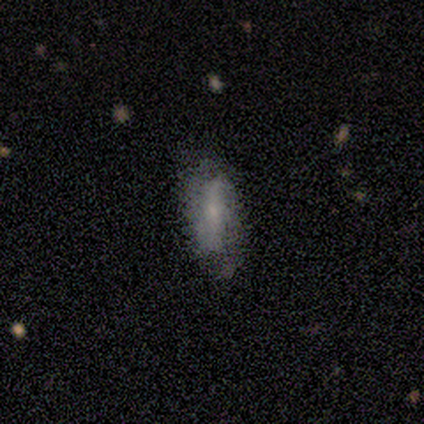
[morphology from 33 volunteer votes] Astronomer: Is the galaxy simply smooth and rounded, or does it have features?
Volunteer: featured or disk — 58%.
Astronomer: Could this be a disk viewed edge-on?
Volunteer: no — 89%.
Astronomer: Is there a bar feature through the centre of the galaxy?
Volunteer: strong — 53%.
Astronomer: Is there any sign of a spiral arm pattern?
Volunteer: yes — 59% (runner-up: no, 41%).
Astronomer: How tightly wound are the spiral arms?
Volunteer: medium — 50% (runner-up: tight, 30%).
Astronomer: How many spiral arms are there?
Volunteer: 2 — 90%.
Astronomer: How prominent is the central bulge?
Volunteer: small — 65%.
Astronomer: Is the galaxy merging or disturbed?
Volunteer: none — 62%.